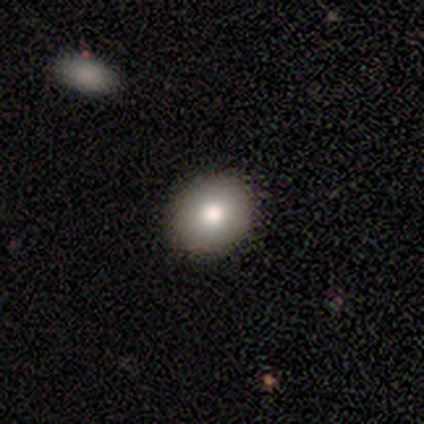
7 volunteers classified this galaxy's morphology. Smooth or featured?
  - smooth: 71% *
  - featured or disk: 14%
  - star or artifact: 14%
How rounded?
  - round: 80% *
  - in between: 20%
  - cigar-shaped: 0%
Merging?
  - none: 83% *
  - minor disturbance: 17%
  - major disturbance: 0%
  - merger: 0%